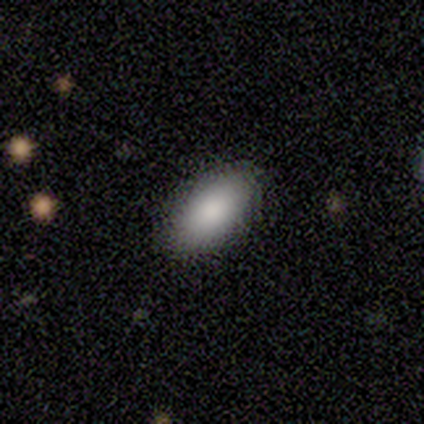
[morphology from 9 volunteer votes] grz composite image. It shows a smooth galaxy with no disk features (100%) that is in between round and cigar-shaped (100%). Merging: none (100%).